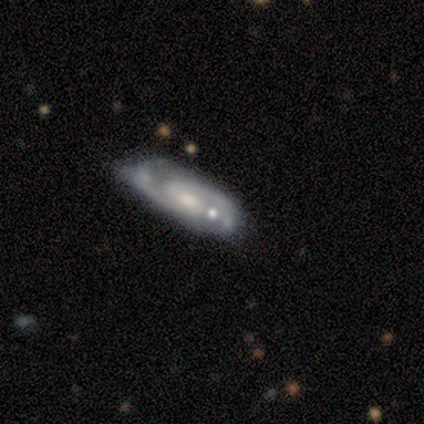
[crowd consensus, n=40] Smooth or featured? featured or disk (80%)
Edge-on disk? no (91%)
Bar? weak (59%)
Spiral arms? yes (93%)
Spiral winding? medium (67%)
Spiral arm count? 2 (96%)
Bulge size? small (66%)
Merging? none (61%)